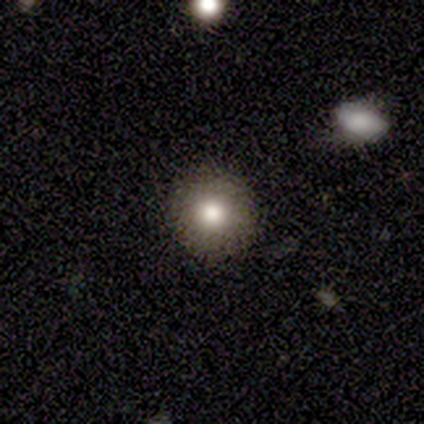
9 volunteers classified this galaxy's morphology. Smooth or featured: smooth — 89% (star or artifact — 11%)
How rounded: round — 100%
Merging: none — 88% (minor disturbance — 12%)